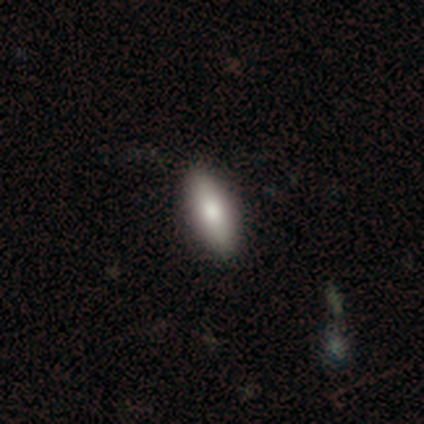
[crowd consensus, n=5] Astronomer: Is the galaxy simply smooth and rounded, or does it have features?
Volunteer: smooth — 60% (runner-up: featured or disk, 40%).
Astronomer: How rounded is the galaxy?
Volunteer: in between — 100%.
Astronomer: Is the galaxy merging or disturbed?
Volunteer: none — 80%.